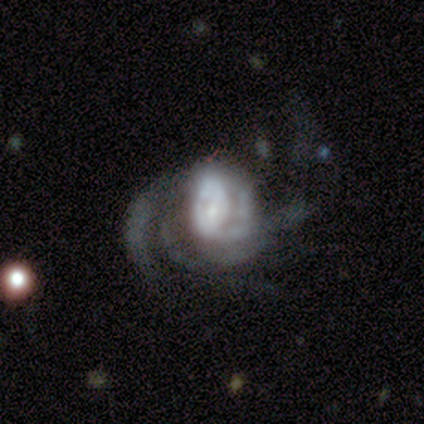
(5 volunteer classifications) A featured or disk galaxy (100%) with no bar (60%), 3 (40%, tied with can't tell) loose (100%) spiral arms (100%) and a moderate central bulge (40%, tied with small). Merging: major disturbance (60%).